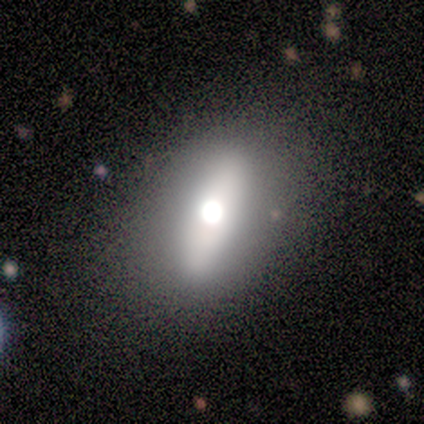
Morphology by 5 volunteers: smooth 80%, featured or disk 20%, star or artifact 0%. Down the decision tree: how rounded — in between (50%, tied with cigar-shaped); merging — none (80%).